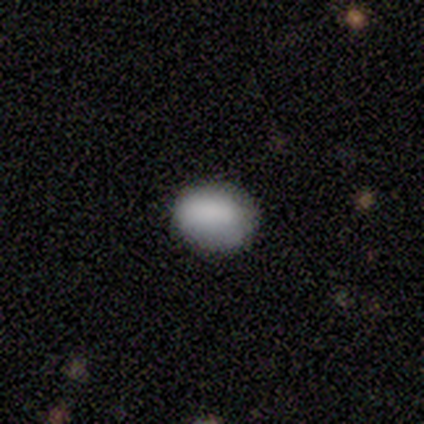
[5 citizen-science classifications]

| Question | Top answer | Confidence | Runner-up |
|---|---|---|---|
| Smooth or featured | smooth | 100% | — |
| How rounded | in between | 60% | round (40%) |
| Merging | none | 60% | minor disturbance (20%) |